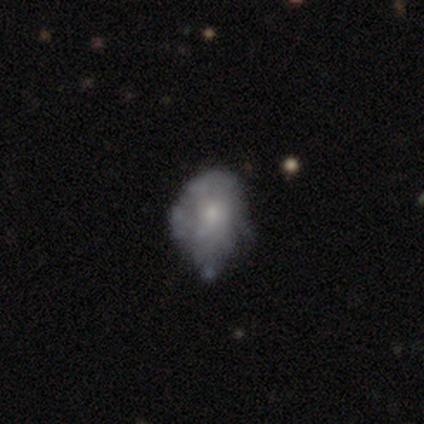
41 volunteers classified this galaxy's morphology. Smooth or featured? featured or disk (59%)
Edge-on disk? no (100%)
Bar? no (96%)
Spiral arms? no (83%)
Bulge size? small (50%)
Merging? none (57%)